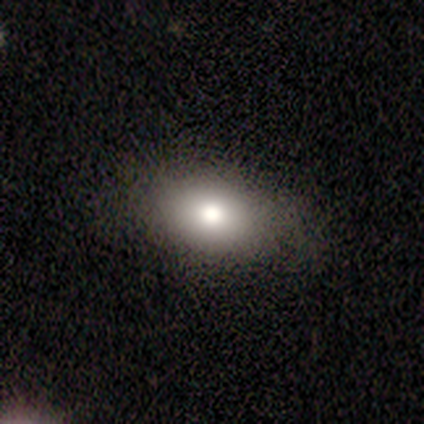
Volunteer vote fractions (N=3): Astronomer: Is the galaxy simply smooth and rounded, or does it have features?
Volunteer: smooth — 67%.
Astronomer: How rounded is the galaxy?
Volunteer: in between — 100%.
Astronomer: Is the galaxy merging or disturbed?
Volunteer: none — 100%.